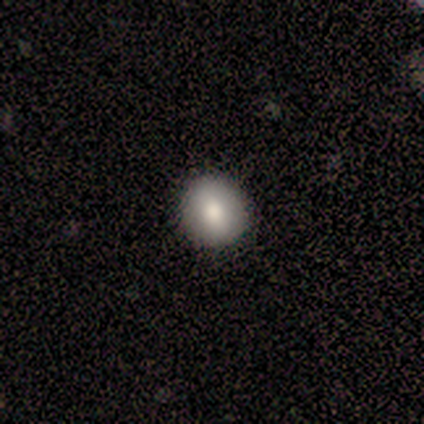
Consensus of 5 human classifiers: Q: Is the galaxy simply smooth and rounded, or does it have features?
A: smooth — 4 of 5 (80%).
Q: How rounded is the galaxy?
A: round — 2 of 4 (50%, tied with in between).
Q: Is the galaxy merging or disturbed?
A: none — 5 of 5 (100%).